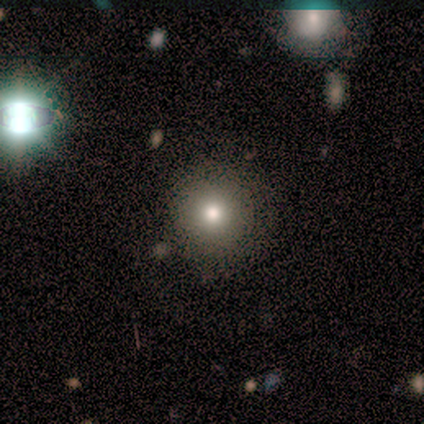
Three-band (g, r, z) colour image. It shows a smooth galaxy with no disk features (100%) that is round (100%). Merging: none (100%).